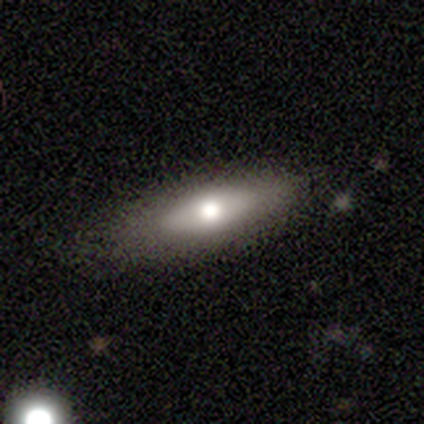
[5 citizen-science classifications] smooth_or_featured: featured or disk (p=0.60) [alt: smooth p=0.40]
disk_edge_on: yes (p=0.67) [alt: no p=0.33]
edge_on_bulge: none (p=0.50) [tied with: rounded p=0.50]
merging: minor disturbance (p=0.60) [alt: none p=0.40]